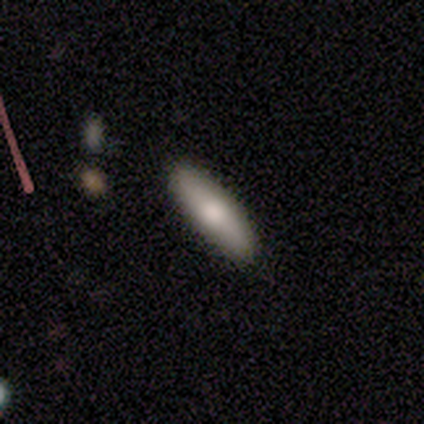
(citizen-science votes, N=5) Morphology: type=smooth (80%); roundness=in between (50%, tied with cigar-shaped); merging=none (100%).